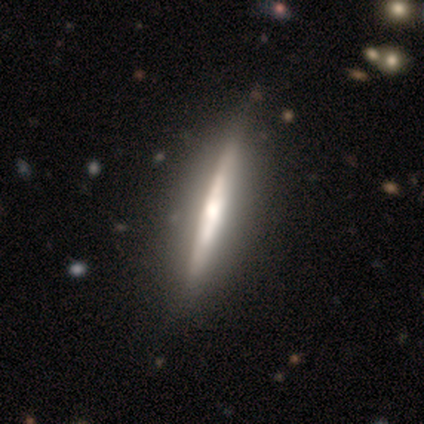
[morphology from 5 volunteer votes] Q: Smooth or featured?
A: featured or disk (80%); runner-up: star or artifact (20%)
Q: Edge-on disk?
A: yes (75%); runner-up: no (25%)
Q: Edge-on bulge?
A: rounded (67%); runner-up: boxy (33%)
Q: Merging?
A: none (50%); tied with: minor disturbance (50%)